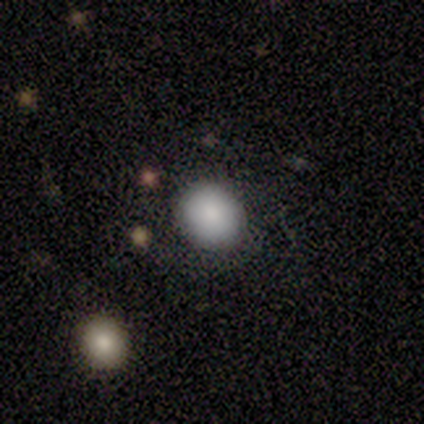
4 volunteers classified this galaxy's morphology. Smooth or featured? smooth (100%)
How rounded? round (75%)
Merging? none (100%)